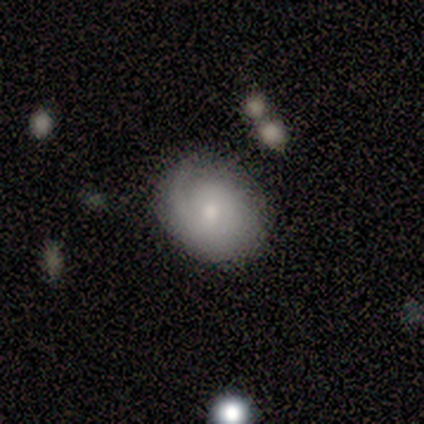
smooth_or_featured: featured or disk (p=0.80) [alt: smooth p=0.20]
disk_edge_on: no (p=1.00)
bar: no (p=0.75) [alt: weak p=0.25]
has_spiral_arms: yes (p=1.00)
spiral_winding: tight (p=0.75) [alt: loose p=0.25]
spiral_arm_count: 1 (p=0.50) [alt: 2 p=0.25]
bulge_size: moderate (p=0.50) [tied with: small p=0.50]
merging: none (p=0.80) [alt: minor disturbance p=0.20]